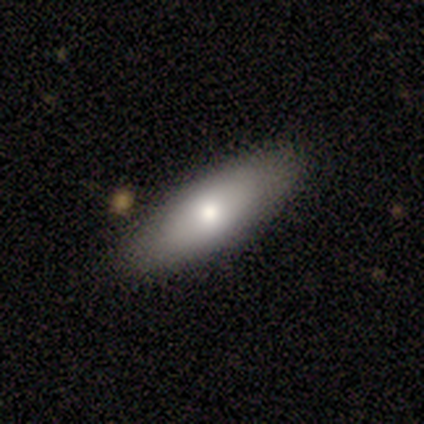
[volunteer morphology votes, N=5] Overall: smooth (60%; featured or disk 40%). How rounded: cigar-shaped (67%; in between 33%). Merging: none (80%).